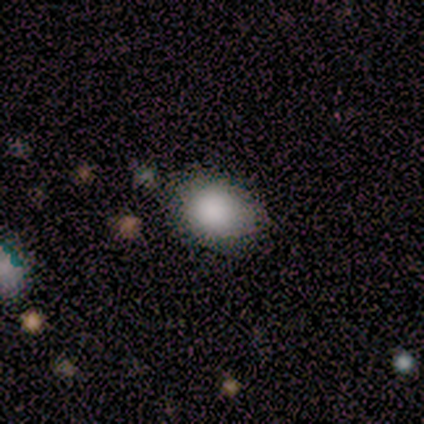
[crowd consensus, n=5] This is clearly a smooth galaxy (100%). How rounded: clearly round (80%). Merging: clearly none (100%).